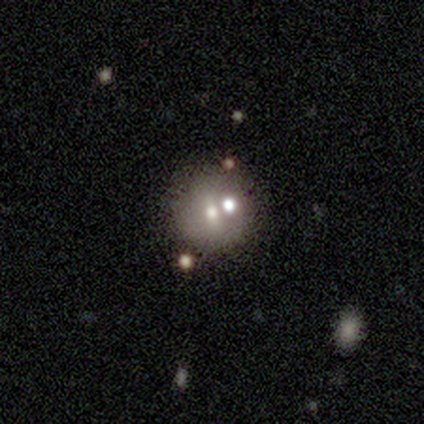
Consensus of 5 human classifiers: A smooth galaxy with no disk features (60%) that is round (67%). Merging: minor disturbance (60%).